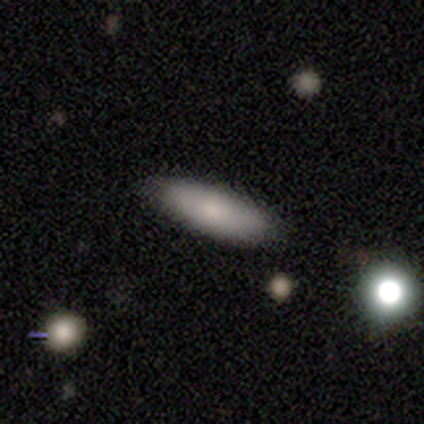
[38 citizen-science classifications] Morphology: type=smooth (79%); roundness=cigar-shaped (63%); merging=none (91%).